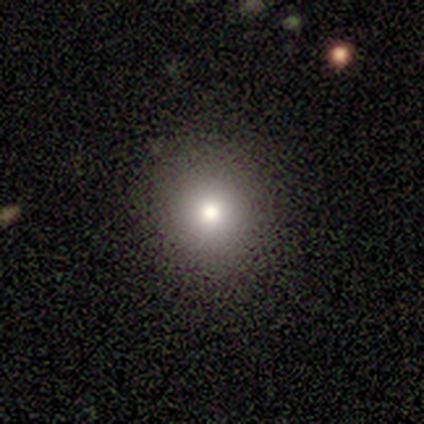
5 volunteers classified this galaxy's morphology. Volunteers were most divided on "smooth or featured" (2-way tie): featured or disk: 40%, star or artifact: 40%, smooth: 20%; "bulge size" (2-way tie): moderate: 50%, small: 50%, dominant: 0%, large: 0%, none: 0%. More confident: edge-on disk — no (100%); bar — no (100%); spiral arms — no (100%); merging — none (100%).